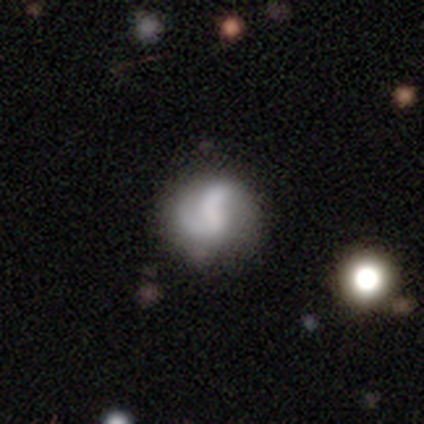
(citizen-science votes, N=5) Smooth or featured? 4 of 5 (80%) said featured or disk. Edge-on disk? 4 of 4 (100%) said no. Bar? 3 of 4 (75%) said weak. Spiral arms? 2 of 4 (50%, tied with no) said yes. Spiral winding? 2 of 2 (100%) said medium. Spiral arm count? 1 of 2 (50%, tied with 2) said 1. Bulge size? 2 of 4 (50%, tied with small) said moderate. Merging? 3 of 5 (60%) said minor disturbance.